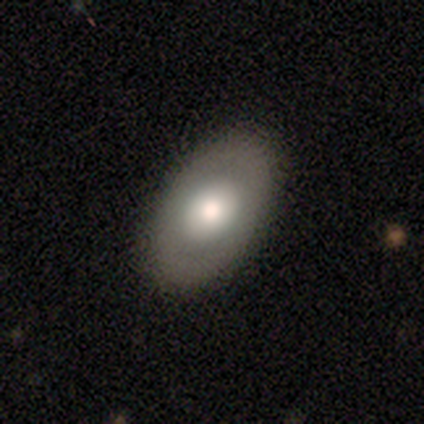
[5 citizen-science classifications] Smooth or featured? smooth (60%)
How rounded? in between (100%)
Merging? none (100%)